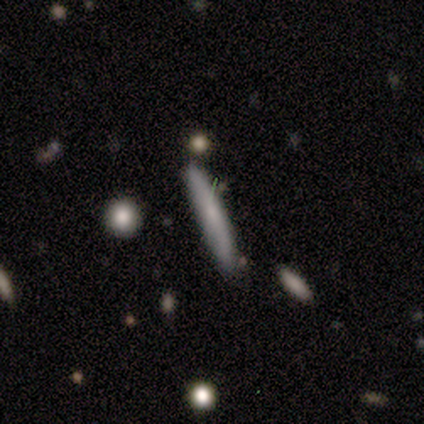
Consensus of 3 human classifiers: Smooth or featured? 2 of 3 (67%) said featured or disk. Edge-on disk? 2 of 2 (100%) said yes. Edge-on bulge? 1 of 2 (50%, tied with rounded) said none. Merging? 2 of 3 (67%) said none.